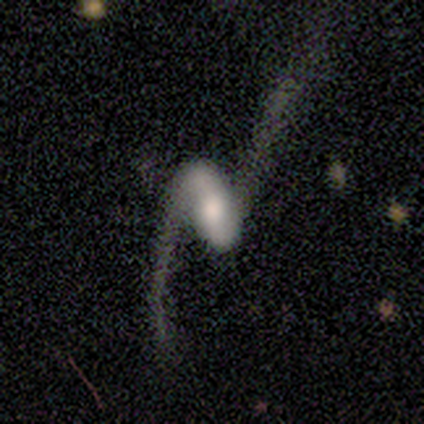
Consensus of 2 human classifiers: Smooth or featured? featured or disk (100%)
Edge-on disk? no (100%)
Bar? strong (50%, tied with weak)
Spiral arms? yes (100%)
Spiral winding? loose (100%)
Spiral arm count? 2 (100%)
Bulge size? large (50%, tied with moderate)
Merging? major disturbance (100%)